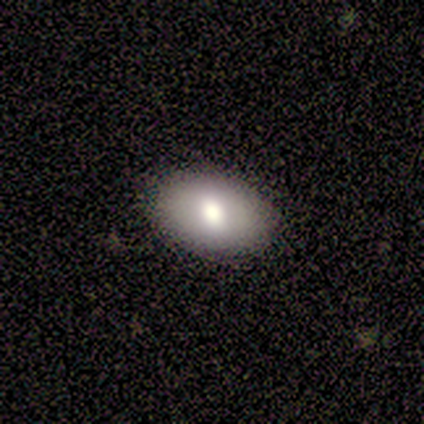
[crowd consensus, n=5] This appears to be a smooth galaxy with no disk features (60%) that is round (67%). Merging: none (80%).